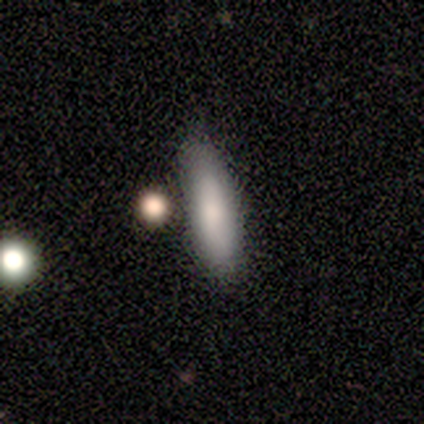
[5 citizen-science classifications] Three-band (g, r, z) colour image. It shows a smooth galaxy with no disk features (80%) that is in between round and cigar-shaped (75%). Merging: none (40%, tied with minor disturbance).